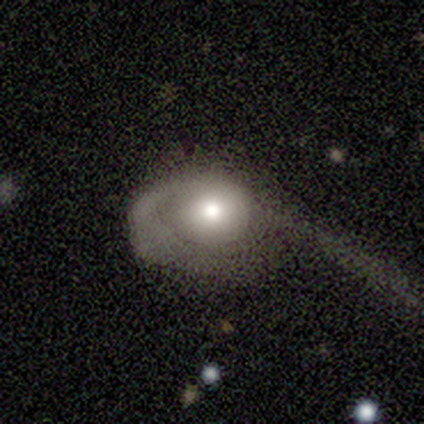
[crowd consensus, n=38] Smooth or featured? featured or disk (61%)
Edge-on disk? no (96%)
Bar? no (91%)
Spiral arms? yes (55%)
Spiral winding? loose (58%)
Spiral arm count? 1 (100%)
Bulge size? moderate (73%)
Merging? major disturbance (71%)